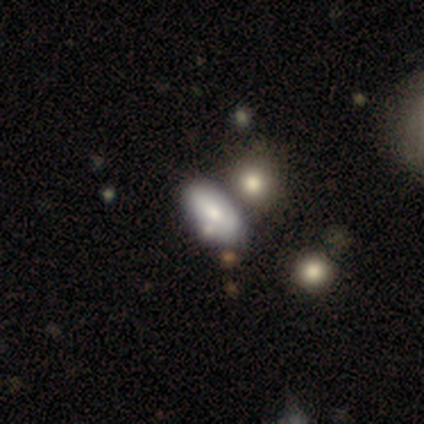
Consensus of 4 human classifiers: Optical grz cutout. It shows a smooth galaxy with no disk features (75%) that is in between round and cigar-shaped (100%). Merging: none (75%).